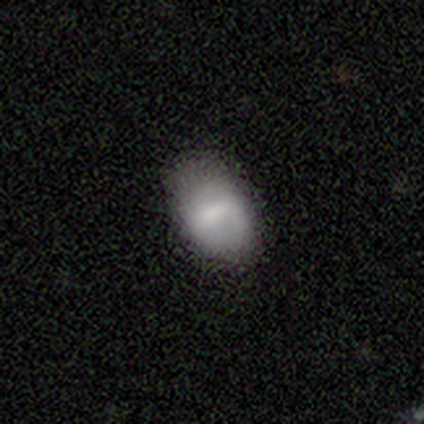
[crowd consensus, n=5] A smooth galaxy with no disk features (80%) that is in between round and cigar-shaped (100%).

Vote fractions:
- Smooth or featured? smooth: 80% / featured or disk: 20% / star or artifact: 0%
- How rounded? in between: 100% / round: 0% / cigar-shaped: 0%
- Merging? none: 80% / minor disturbance: 20% / major disturbance: 0% / merger: 0%